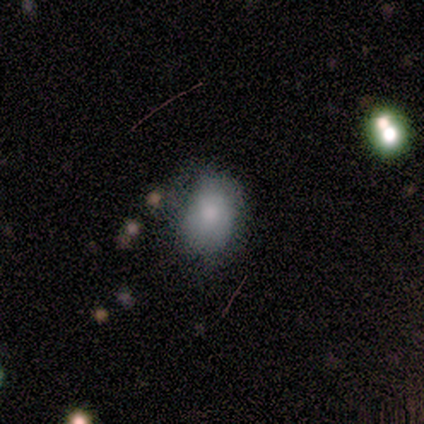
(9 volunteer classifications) Smooth or featured?
  - smooth: 67% *
  - featured or disk: 22%
  - star or artifact: 11%
How rounded?
  - in between: 100% *
  - round: 0%
  - cigar-shaped: 0%
Merging?
  - none: 75% *
  - minor disturbance: 12%
  - major disturbance: 12%
  - merger: 0%